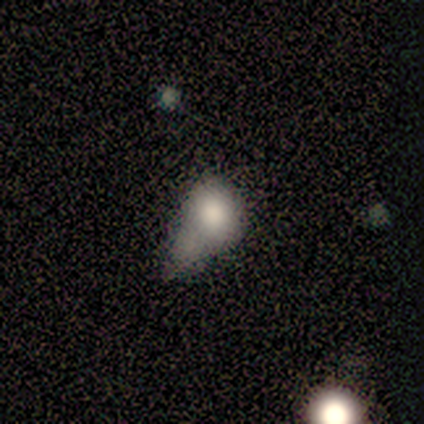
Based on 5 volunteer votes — A featured or disk galaxy (60%) with no bar (100%), no spiral arms (67%) and a large central bulge (67%). Merging: major disturbance (80%).